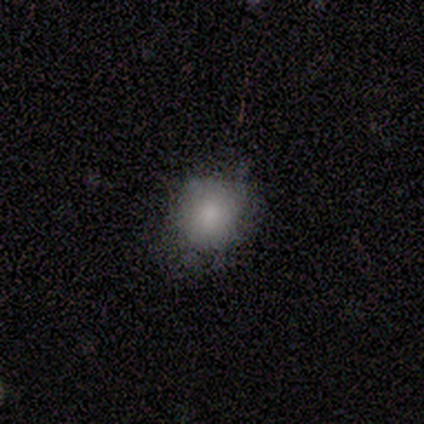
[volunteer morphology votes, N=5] This is likely a smooth galaxy (60%). How rounded: likely round (67%). Merging: possibly none (50%, tied with minor disturbance).